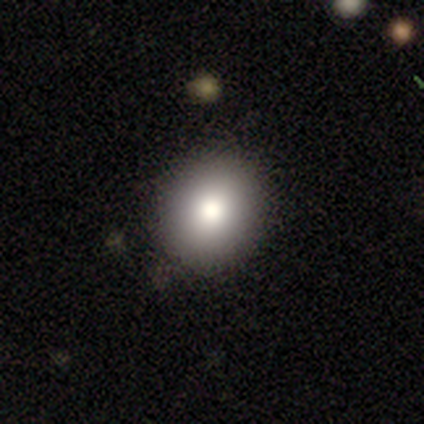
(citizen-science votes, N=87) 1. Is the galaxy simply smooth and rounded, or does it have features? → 85% smooth, 10% star or artifact, 5% featured or disk.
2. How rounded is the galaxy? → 73% round, 26% in between, 1% cigar-shaped.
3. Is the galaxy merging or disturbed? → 85% none, 10% minor disturbance, 4% major disturbance, 1% merger.